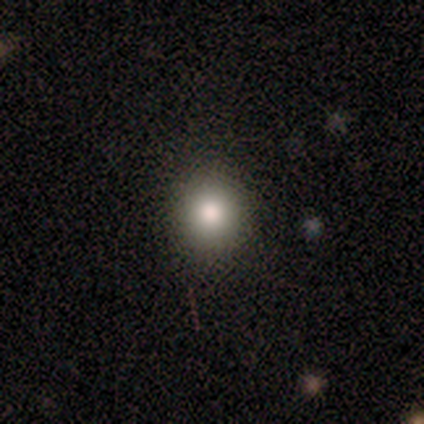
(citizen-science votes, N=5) Volunteers were most divided on "smooth or featured": smooth: 80%, star or artifact: 20%, featured or disk: 0%. More confident: how rounded — round (100%); merging — none (100%).